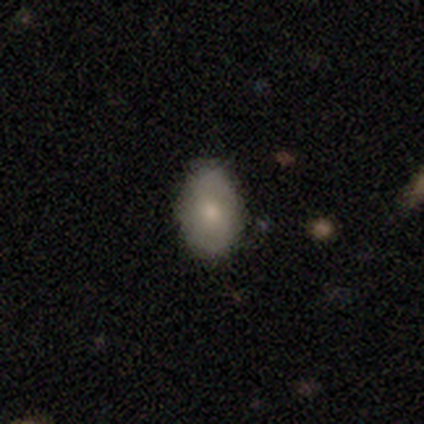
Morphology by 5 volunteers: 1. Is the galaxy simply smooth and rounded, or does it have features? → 80% smooth, 20% featured or disk, 0% star or artifact.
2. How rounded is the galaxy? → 50% round (tied), 50% in between (tied), 0% cigar-shaped.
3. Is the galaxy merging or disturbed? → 80% none, 20% minor disturbance, 0% major disturbance, 0% merger.